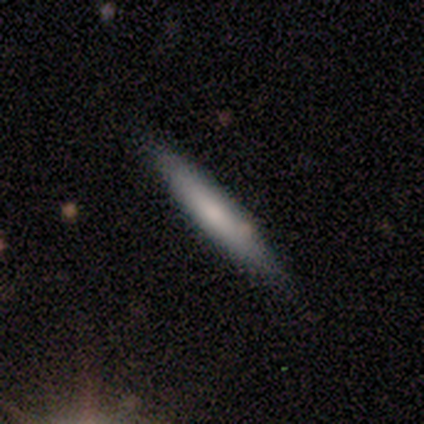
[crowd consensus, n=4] featured or disk 75%, smooth 25%, star or artifact 0%. Down the decision tree: edge-on disk — yes (100%); edge-on bulge — none (67%); merging — none (75%).